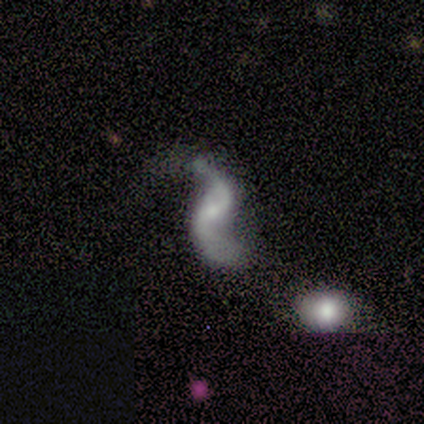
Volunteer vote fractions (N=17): Smooth or featured?
  - featured or disk: 100% *
  - smooth: 0%
  - star or artifact: 0%
Edge-on disk?
  - no: 100% *
  - yes: 0%
Bar?
  - no: 41% *
  - weak: 35%
  - strong: 24%
Spiral arms?
  - yes: 88% *
  - no: 12%
Spiral winding?
  - loose: 93% *
  - medium: 7%
  - tight: 0%
Spiral arm count?
  - 2: 87% *
  - 1: 13%
  - 3: 0%
  - 4: 0%
  - more than 4: 0%
  - can't tell: 0%
Bulge size?
  - small: 65% *
  - none: 24%
  - moderate: 12%
  - dominant: 0%
  - large: 0%
Merging?
  - none: 47% *
  - minor disturbance: 35%
  - major disturbance: 18%
  - merger: 0%